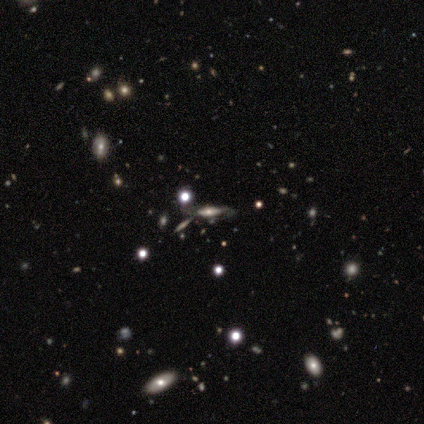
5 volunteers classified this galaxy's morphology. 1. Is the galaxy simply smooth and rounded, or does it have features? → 60% smooth, 20% featured or disk, 20% star or artifact.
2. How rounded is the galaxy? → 67% in between, 33% cigar-shaped, 0% round.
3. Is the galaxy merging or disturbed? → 75% none, 25% minor disturbance, 0% major disturbance, 0% merger.